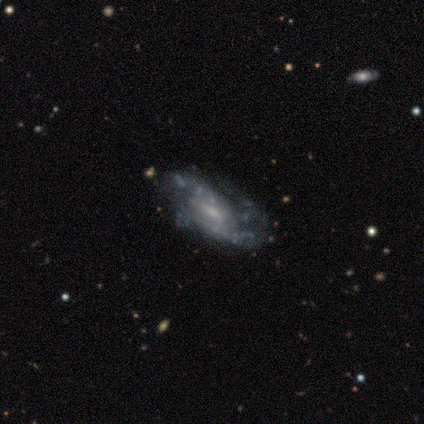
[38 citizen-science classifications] Morphology: type=featured or disk (84%); edge-on=no (84%); bar=no (56%); spiral arms=yes (96%); winding=medium (46%); arm count=2 (42%, tied with can't tell); bulge=small (78%); merging=none (77%).